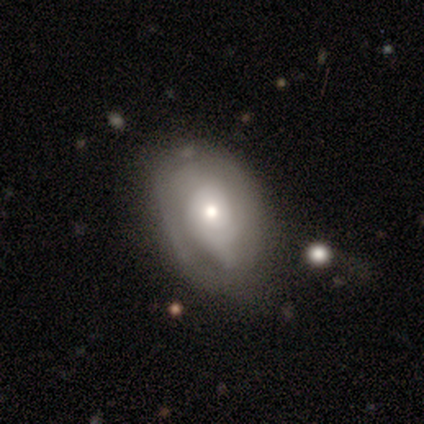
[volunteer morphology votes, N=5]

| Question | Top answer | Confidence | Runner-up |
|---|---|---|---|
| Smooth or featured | featured or disk | 80% | smooth (20%) |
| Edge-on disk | no | 100% | — |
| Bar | no | 50% | strong (25%) |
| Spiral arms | yes | 100% | — |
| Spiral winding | loose | 50% | tight (25%) |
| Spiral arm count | can't tell | 75% | 2 (25%) |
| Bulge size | small | 50% | large (25%) |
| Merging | minor disturbance | 40% | tied: major disturbance (40%) |